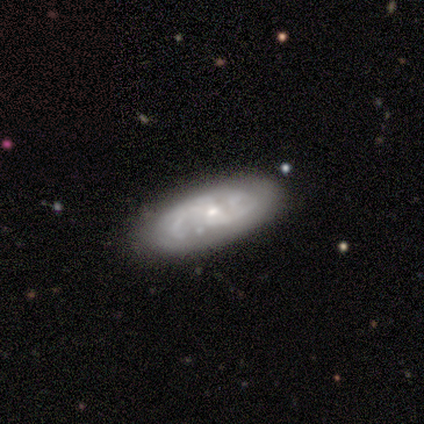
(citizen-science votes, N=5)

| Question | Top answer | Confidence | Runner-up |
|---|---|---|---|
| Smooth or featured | featured or disk | 100% | — |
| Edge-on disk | no | 100% | — |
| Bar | no | 60% | weak (40%) |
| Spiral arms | yes | 80% | no (20%) |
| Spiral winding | medium | 75% | tight (25%) |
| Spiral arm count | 2 | 50% | tied: can't tell (50%) |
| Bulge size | small | 80% | moderate (20%) |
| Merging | none | 100% | — |